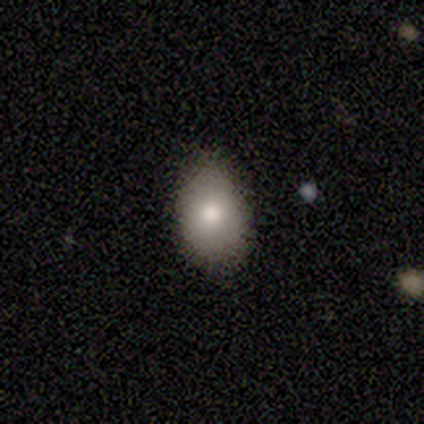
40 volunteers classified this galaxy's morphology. This appears to be a smooth galaxy with no disk features (85%) that is in between round and cigar-shaped (85%). Merging: none (81%).